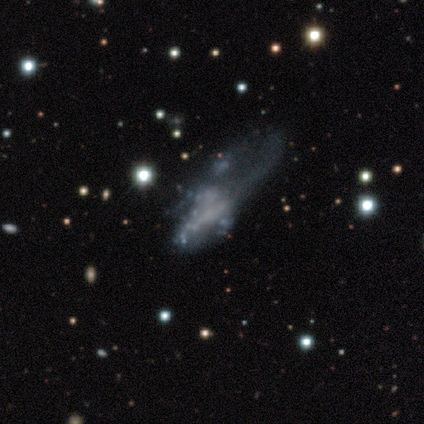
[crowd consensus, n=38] Q: Smooth or featured?
A: featured or disk (74%); runner-up: smooth (13%)
Q: Edge-on disk?
A: no (96%); runner-up: yes (4%)
Q: Bar?
A: no (89%); runner-up: strong (7%)
Q: Spiral arms?
A: no (89%); runner-up: yes (11%)
Q: Bulge size?
A: none (85%); runner-up: large (7%)
Q: Merging?
A: major disturbance (55%); runner-up: none (24%)